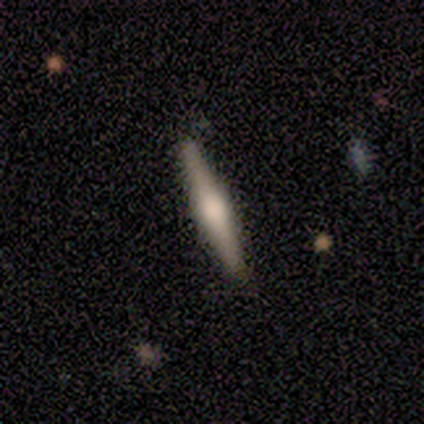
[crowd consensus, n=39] smooth-or-featured: featured or disk: 67% | smooth: 33% | star or artifact: 0%
  disk-edge-on: yes: 96% | no: 4%
    edge-on-bulge: rounded: 72% | boxy: 24% | none: 4%
  merging: none: 59% | minor disturbance: 10% | major disturbance: 0% | merger: 0%